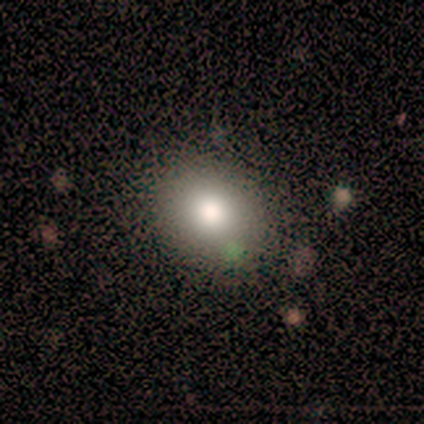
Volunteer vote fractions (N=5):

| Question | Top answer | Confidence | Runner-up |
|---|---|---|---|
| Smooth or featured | smooth | 80% | star or artifact (20%) |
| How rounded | round | 100% | — |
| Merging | none | 100% | — |